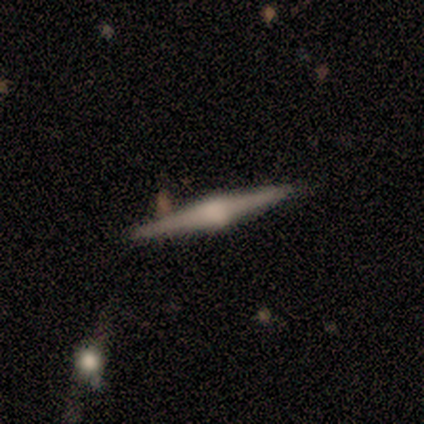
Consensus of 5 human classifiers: Smooth or featured? 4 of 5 (80%) said featured or disk. Edge-on disk? 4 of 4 (100%) said yes. Edge-on bulge? 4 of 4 (100%) said rounded. Merging? 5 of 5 (100%) said none.